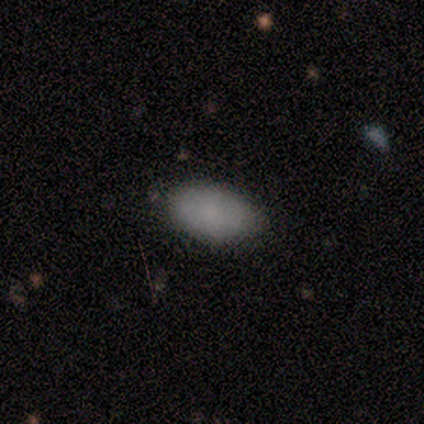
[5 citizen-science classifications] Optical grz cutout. It shows a smooth galaxy with no disk features (80%) that is in between round and cigar-shaped (100%). Merging: none (60%).